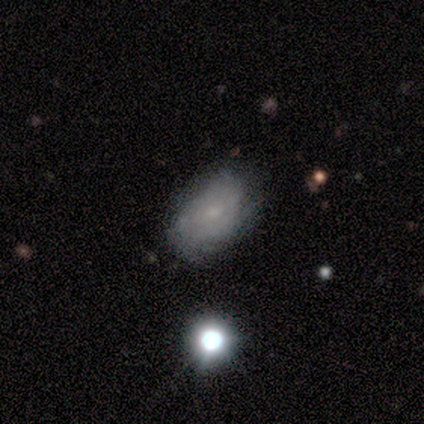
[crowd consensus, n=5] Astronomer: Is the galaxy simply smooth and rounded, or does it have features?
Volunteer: smooth — 60% (runner-up: featured or disk, 40%).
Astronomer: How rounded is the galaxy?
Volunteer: in between — 100%.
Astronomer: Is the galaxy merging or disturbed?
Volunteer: none — 40%, tied with minor disturbance at 40%.